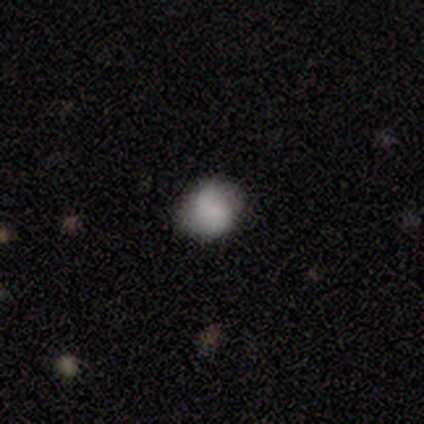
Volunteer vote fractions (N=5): A smooth galaxy with no disk features (80%) that is round (75%). Merging: none (75%).